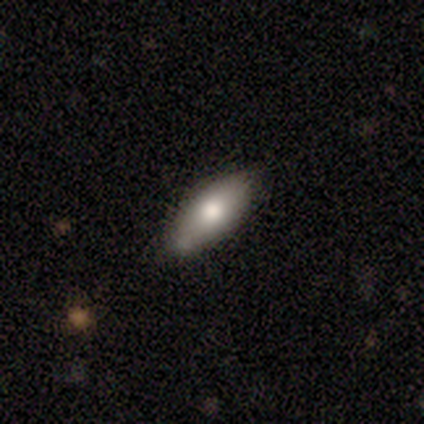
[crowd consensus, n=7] smooth_or_featured: smooth (p=0.86) [alt: featured or disk p=0.14]
how_rounded: in between (p=0.83) [alt: cigar-shaped p=0.17]
merging: none (p=0.57) [alt: minor disturbance p=0.29]